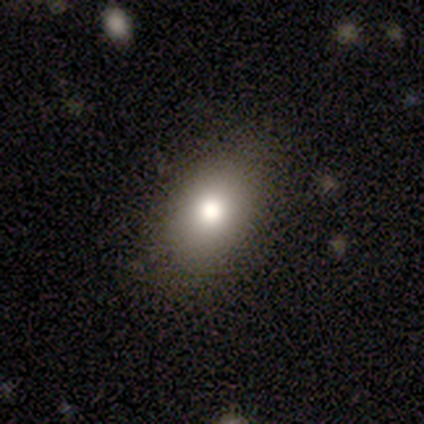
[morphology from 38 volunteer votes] smooth-or-featured: smooth: 71% | featured or disk: 16% | star or artifact: 13%
  how-rounded: in between: 78% | round: 22% | cigar-shaped: 0%
  merging: none: 94% | minor disturbance: 6% | major disturbance: 0% | merger: 0%